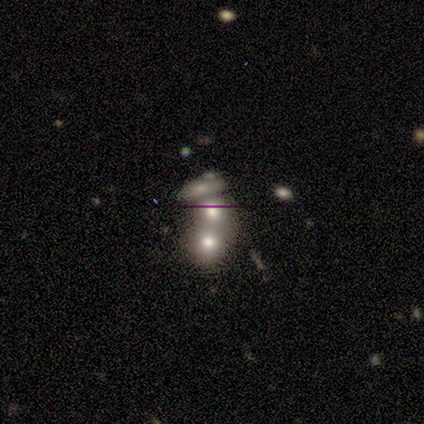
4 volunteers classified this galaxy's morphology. smooth-or-featured: smooth: 50% (tied) | star or artifact: 50% (tied) | featured or disk: 0%
  how-rounded: round: 100% | in between: 0% | cigar-shaped: 0%
  merging: none: 50% (tied) | merger: 50% (tied) | minor disturbance: 0% | major disturbance: 0%